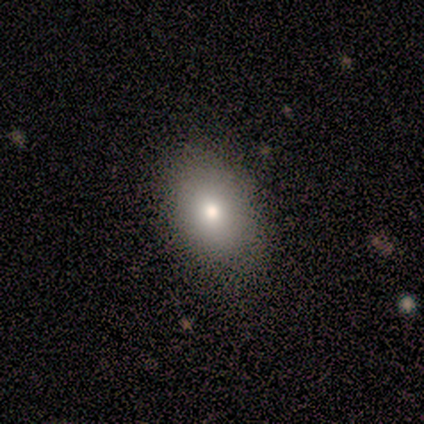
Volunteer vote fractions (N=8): Smooth or featured? 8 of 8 (100%) said smooth. How rounded? 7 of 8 (88%) said in between. Merging? 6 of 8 (75%) said none.